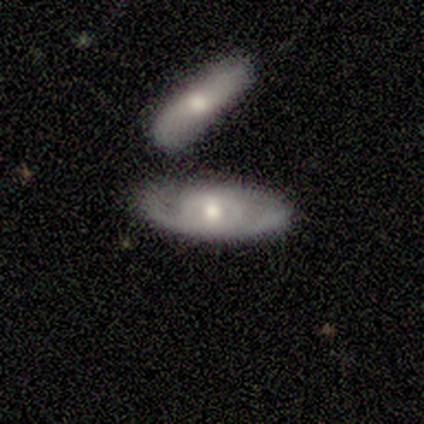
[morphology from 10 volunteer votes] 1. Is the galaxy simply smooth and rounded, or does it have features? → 70% featured or disk, 30% smooth, 0% star or artifact.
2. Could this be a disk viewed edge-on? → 100% no, 0% yes.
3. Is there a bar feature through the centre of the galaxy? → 100% no, 0% strong, 0% weak.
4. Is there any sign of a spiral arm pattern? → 71% no, 29% yes.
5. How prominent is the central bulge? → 43% moderate (tied), 43% small (tied), 14% large, 0% dominant, 0% none.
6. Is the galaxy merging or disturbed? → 60% none, 20% merger, 10% minor disturbance, 10% major disturbance.